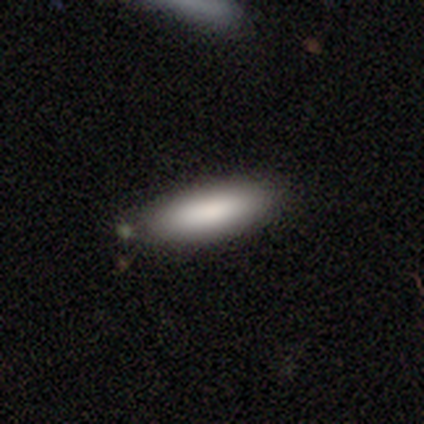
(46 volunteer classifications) A smooth galaxy with no disk features (91%) that is in between round and cigar-shaped (52%).

Vote fractions:
- Smooth or featured? smooth: 91% / featured or disk: 9% / star or artifact: 0%
- How rounded? in between: 52% / cigar-shaped: 45% / round: 2%
- Merging? none: 78% / minor disturbance: 22% / major disturbance: 0% / merger: 0%